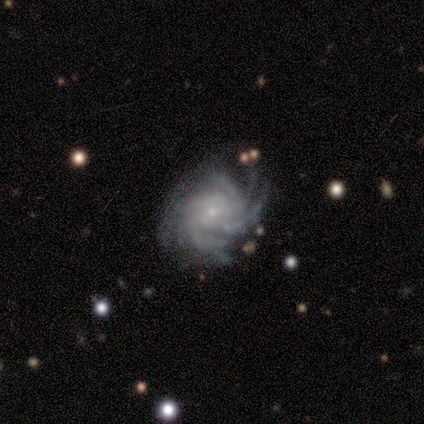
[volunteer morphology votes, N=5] A featured or disk galaxy (100%) with no bar (80%), more than 4 (60%) tight (60%) spiral arms (100%) and a small central bulge (100%). Merging: none (80%).